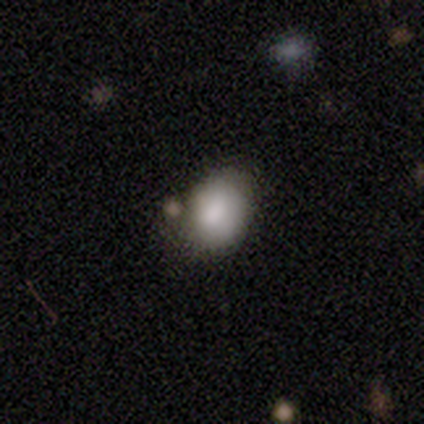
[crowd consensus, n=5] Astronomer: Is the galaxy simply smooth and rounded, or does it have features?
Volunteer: smooth — 60%.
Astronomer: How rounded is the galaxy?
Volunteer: round — 67%.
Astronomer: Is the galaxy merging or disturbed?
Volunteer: none — 75%.